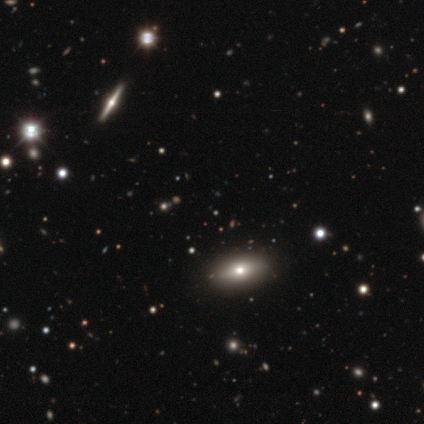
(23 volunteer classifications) Overall: star or artifact (52%; smooth 26%).